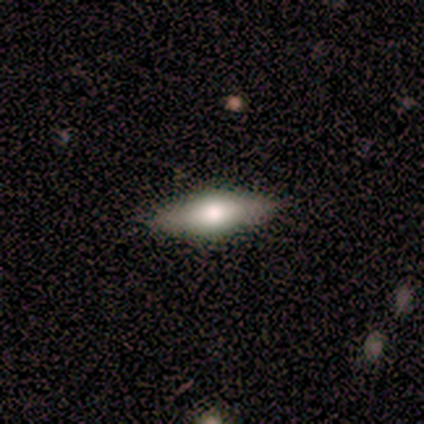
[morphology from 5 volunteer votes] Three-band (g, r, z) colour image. It shows a featured or disk galaxy (60%) viewed edge-on (100%) with a rounded central bulge (100%). Merging: none (100%).